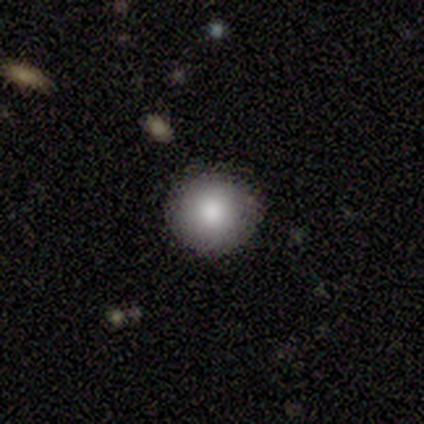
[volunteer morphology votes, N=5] Smooth or featured: smooth — 100%
How rounded: round — 100%
Merging: none — 100%